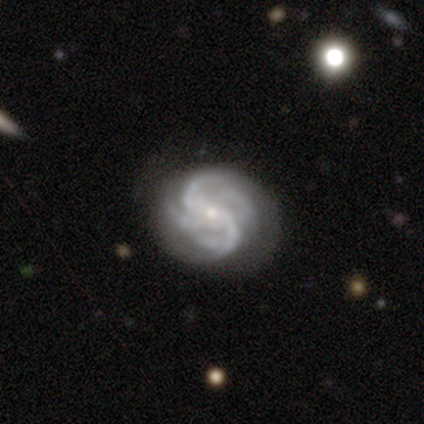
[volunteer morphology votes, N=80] type=featured or disk (98%); edge-on=no (97%); bar=no (57%); spiral arms=yes (100%); winding=tight (50%); arm count=4 (61%); bulge=small (74%); merging=none (74%).